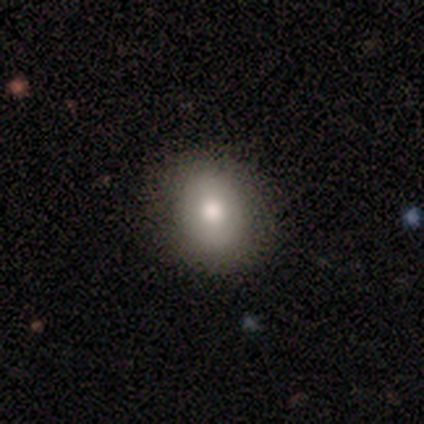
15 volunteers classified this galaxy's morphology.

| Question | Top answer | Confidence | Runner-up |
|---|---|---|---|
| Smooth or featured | smooth | 80% | featured or disk (13%) |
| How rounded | in between | 58% | round (42%) |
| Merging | none | 86% | minor disturbance (14%) |